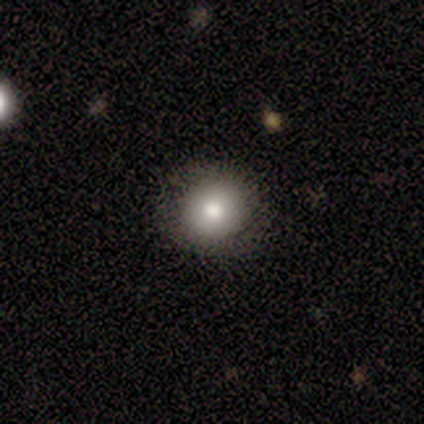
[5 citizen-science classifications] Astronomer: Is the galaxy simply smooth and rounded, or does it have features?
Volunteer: smooth — 80%.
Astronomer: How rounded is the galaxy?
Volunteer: round — 100%.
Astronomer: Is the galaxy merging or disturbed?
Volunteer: none — 100%.